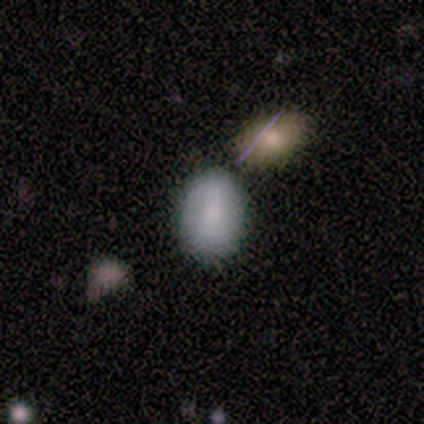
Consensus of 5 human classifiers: Q: Smooth or featured?
A: smooth (80%); runner-up: featured or disk (20%)
Q: How rounded?
A: in between (100%)
Q: Merging?
A: none (40%); tied with: major disturbance (40%)